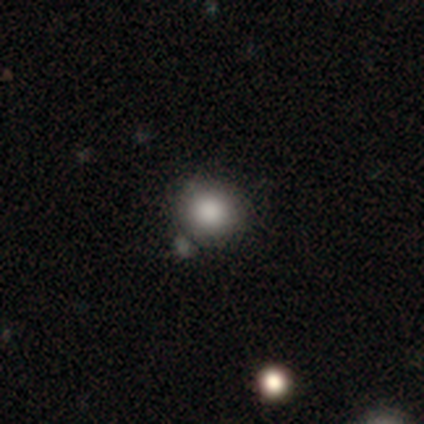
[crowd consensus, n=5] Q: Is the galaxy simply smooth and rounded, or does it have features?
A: smooth — 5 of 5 (100%).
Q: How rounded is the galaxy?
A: round — 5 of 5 (100%).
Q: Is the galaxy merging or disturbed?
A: none — 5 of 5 (100%).